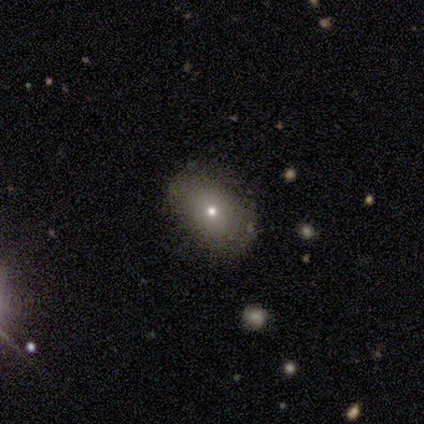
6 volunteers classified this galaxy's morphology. A smooth galaxy with no disk features (83%) that is in between round and cigar-shaped (80%). Merging: none (100%).